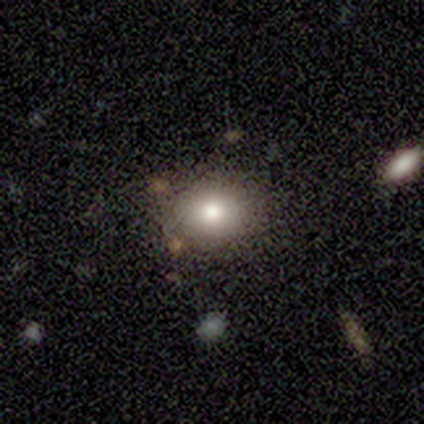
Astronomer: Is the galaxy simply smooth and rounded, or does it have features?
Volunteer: smooth — 75%.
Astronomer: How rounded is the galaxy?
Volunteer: round — 67%.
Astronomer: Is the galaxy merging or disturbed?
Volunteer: none — 75%.